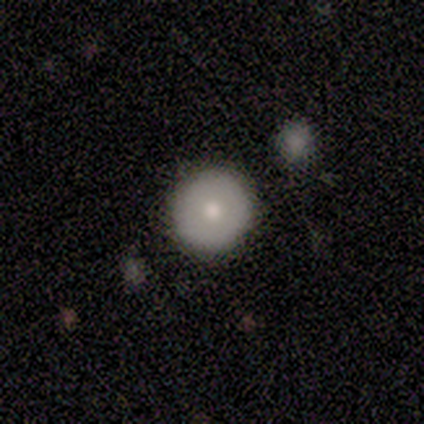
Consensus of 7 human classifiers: smooth_or_featured: smooth (p=0.71) [alt: featured or disk p=0.29]
how_rounded: round (p=1.00)
merging: none (p=1.00)